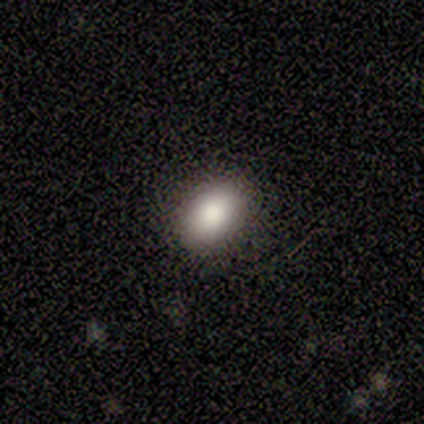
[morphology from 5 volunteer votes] Smooth or featured? smooth (60%)
How rounded? in between (100%)
Merging? none (67%)